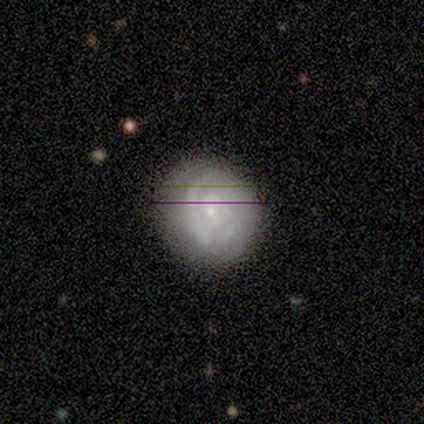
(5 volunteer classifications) Morphology: type=featured or disk (100%); edge-on=no (100%); bar=no (60%); spiral arms=yes (100%); winding=tight (60%); arm count=2 (60%); bulge=small (80%); merging=none (80%).